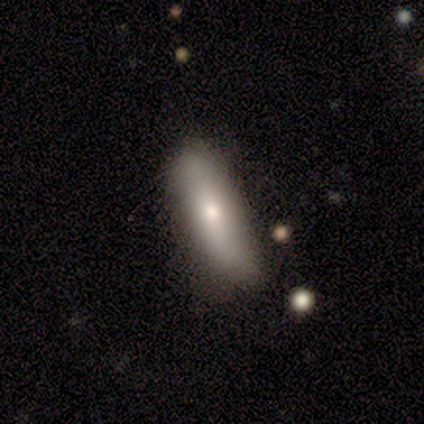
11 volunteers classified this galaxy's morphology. This is clearly a smooth galaxy (82%). How rounded: possibly cigar-shaped (56%). Merging: possibly none (45%).